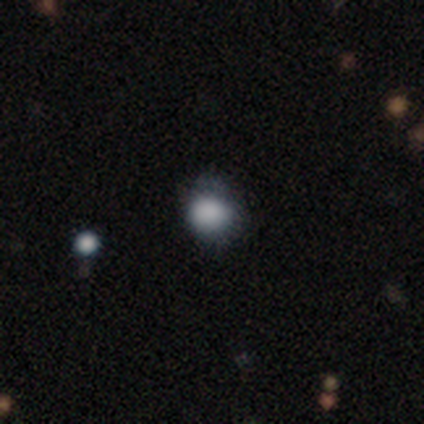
Smooth or featured?
  - smooth: 100% *
  - featured or disk: 0%
  - star or artifact: 0%
How rounded?
  - round: 80% *
  - in between: 20%
  - cigar-shaped: 0%
Merging?
  - none: 60% *
  - minor disturbance: 20%
  - major disturbance: 20%
  - merger: 0%